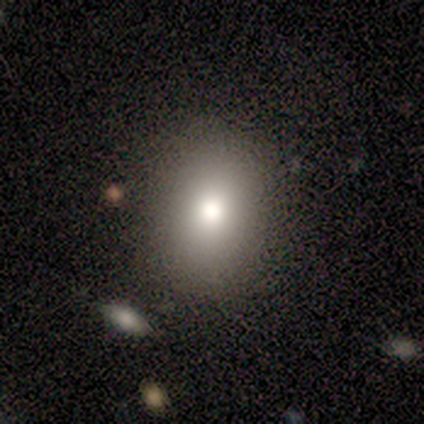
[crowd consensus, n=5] Smooth or featured?
  - smooth: 80% *
  - featured or disk: 20%
  - star or artifact: 0%
How rounded?
  - round: 75% *
  - in between: 25%
  - cigar-shaped: 0%
Merging?
  - none: 100% *
  - minor disturbance: 0%
  - major disturbance: 0%
  - merger: 0%